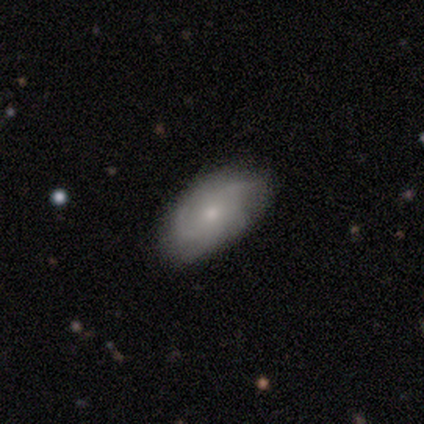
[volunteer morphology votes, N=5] A featured or disk galaxy (80%) with no bar (67%), 2 (33%, tied with 3 and can't tell) medium (67%) spiral arms (100%) and a small central bulge (100%). Merging: none (80%).